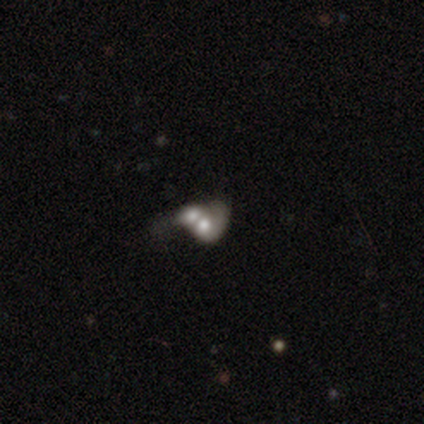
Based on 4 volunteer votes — Overall: smooth (75%). How rounded: in between (67%; round 33%). Merging: merger (100%).